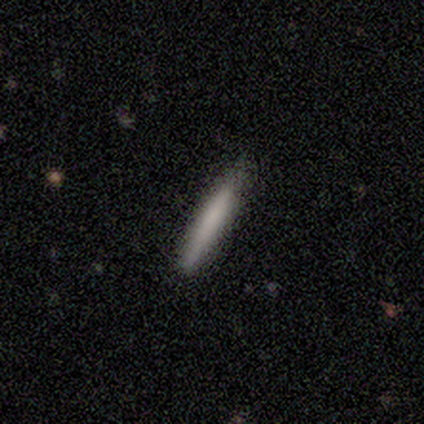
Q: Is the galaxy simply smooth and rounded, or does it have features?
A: smooth — 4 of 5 (80%).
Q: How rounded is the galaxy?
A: cigar-shaped — 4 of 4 (100%).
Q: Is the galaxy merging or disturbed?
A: none — 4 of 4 (100%).